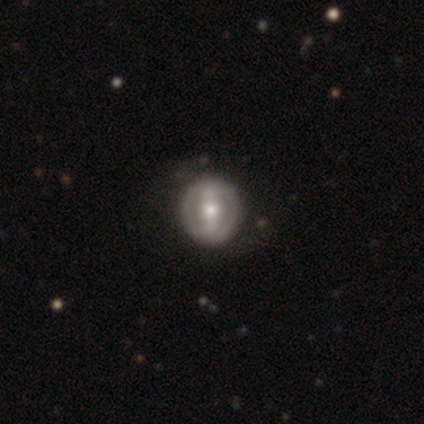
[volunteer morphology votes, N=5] Volunteers were most divided on "bar": weak: 67%, strong: 33%, no: 0%. More confident: edge-on disk — no (100%); spiral arms — no (100%); merging — none (75%); bulge size — moderate (67%); smooth or featured — featured or disk (60%).